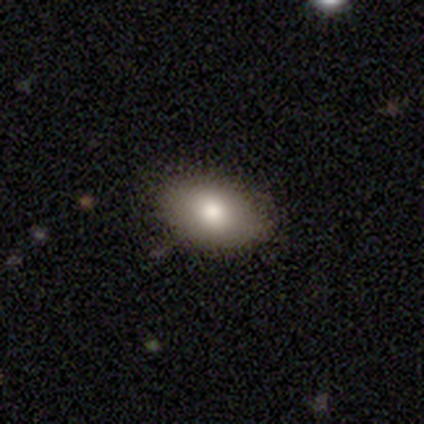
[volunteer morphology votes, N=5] Smooth or featured: smooth — 80% (featured or disk — 20%)
How rounded: in between — 100%
Merging: none — 100%